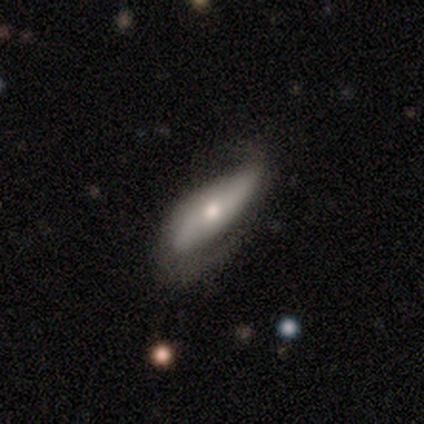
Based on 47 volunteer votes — Smooth or featured: featured or disk — 53% (smooth — 43%)
Edge-on disk: no — 64% (yes — 36%)
Bar: no — 50% (strong — 25%)
Spiral arms: yes — 88% (no — 12%)
Spiral winding: loose — 50% (medium — 36%)
Spiral arm count: 2 — 100%
Bulge size: moderate — 50% (tied with small — 50%)
Merging: none — 58% (minor disturbance — 33%)